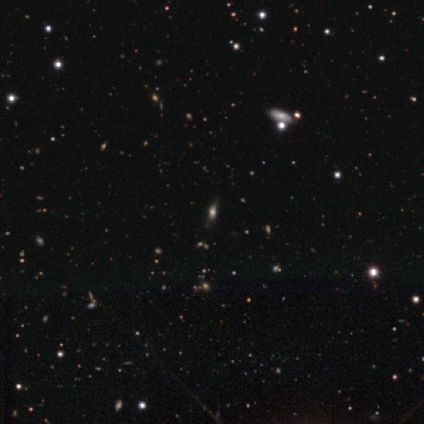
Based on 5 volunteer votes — Smooth or featured?
  - star or artifact: 100% *
  - smooth: 0%
  - featured or disk: 0%